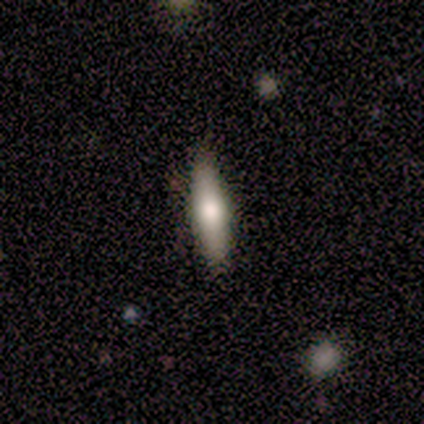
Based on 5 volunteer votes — Morphology: type=featured or disk (60%); edge-on=yes (100%); edge-on bulge=rounded (67%); merging=none (60%).